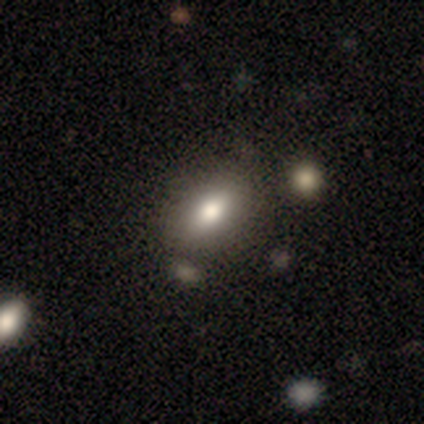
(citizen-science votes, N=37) Smooth or featured? 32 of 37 (86%) said smooth. How rounded? 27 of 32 (84%) said in between. Merging? 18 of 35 (51%) said none.